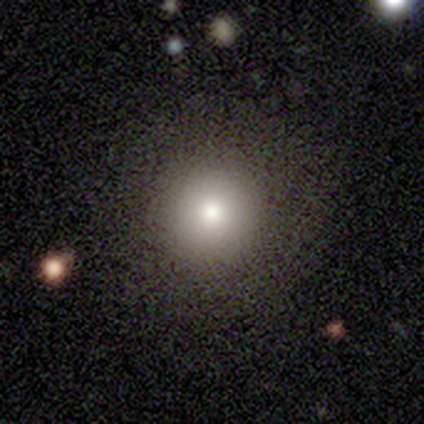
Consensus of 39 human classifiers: Smooth or featured?
  - smooth: 79% *
  - star or artifact: 13%
  - featured or disk: 8%
How rounded?
  - round: 100% *
  - in between: 0%
  - cigar-shaped: 0%
Merging?
  - none: 91% *
  - major disturbance: 6%
  - minor disturbance: 3%
  - merger: 0%